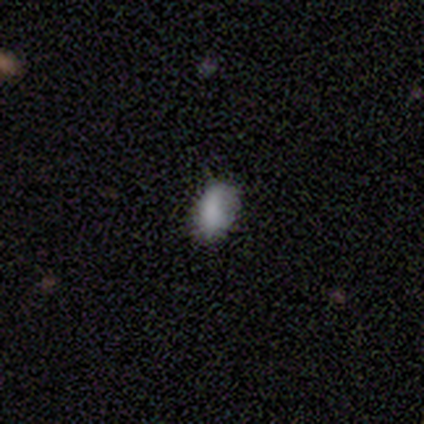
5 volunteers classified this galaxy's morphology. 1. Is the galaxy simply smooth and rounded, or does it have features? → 100% smooth, 0% featured or disk, 0% star or artifact.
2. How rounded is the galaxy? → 100% in between, 0% round, 0% cigar-shaped.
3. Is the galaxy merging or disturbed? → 80% none, 20% minor disturbance, 0% major disturbance, 0% merger.